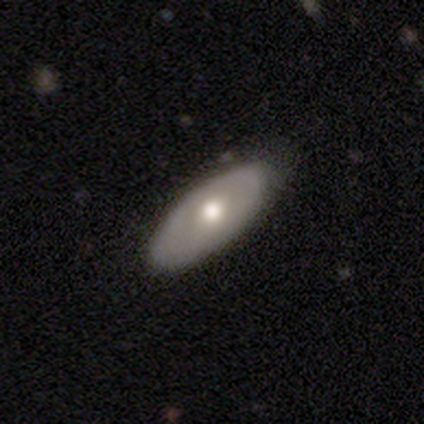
featured or disk 80%, smooth 20%, star or artifact 0%. Down the decision tree: edge-on disk — no (100%); bar — no (100%); spiral arms — no (100%); bulge size — moderate (50%); merging — none (60%).